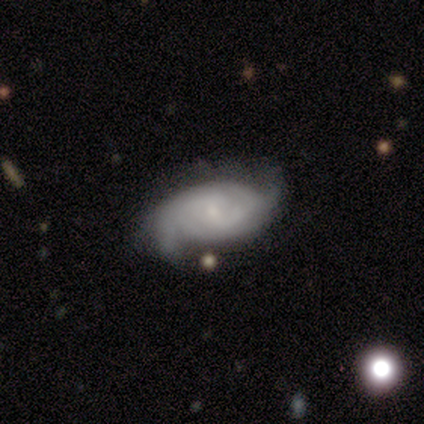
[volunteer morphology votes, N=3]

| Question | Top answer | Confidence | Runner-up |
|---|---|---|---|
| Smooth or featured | featured or disk | 100% | — |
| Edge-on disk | no | 100% | — |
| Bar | weak | 67% | no (33%) |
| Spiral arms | yes | 100% | — |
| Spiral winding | tight | 33% | tied: medium (33%), loose (33%) |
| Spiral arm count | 2 | 67% | 3 (33%) |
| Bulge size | none | 67% | small (33%) |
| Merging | none | 67% | minor disturbance (33%) |